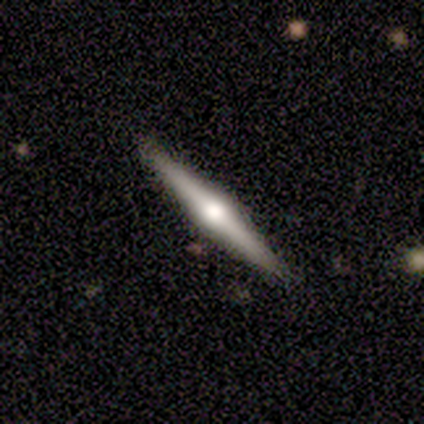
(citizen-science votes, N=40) Overall: featured or disk (75%). Edge-on disk: yes (100%). Edge-on bulge: rounded (93%). Merging: none (97%).